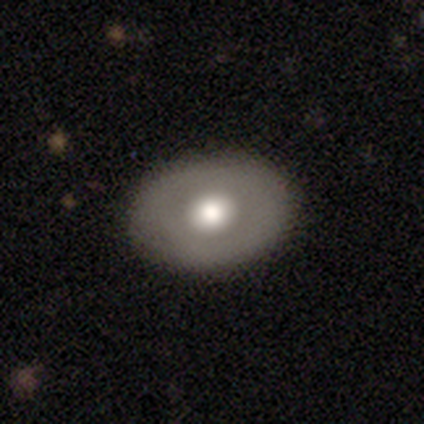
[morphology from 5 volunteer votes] Smooth or featured? smooth (60%)
How rounded? in between (100%)
Merging? none (100%)